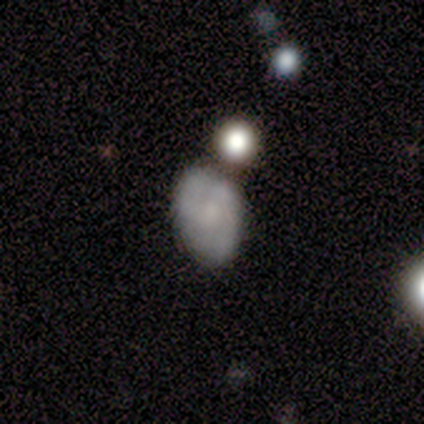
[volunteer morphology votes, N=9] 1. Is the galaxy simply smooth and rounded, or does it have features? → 78% featured or disk, 22% smooth, 0% star or artifact.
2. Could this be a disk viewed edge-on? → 100% no, 0% yes.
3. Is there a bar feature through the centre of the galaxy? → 57% weak, 43% no, 0% strong.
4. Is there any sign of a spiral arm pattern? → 100% yes, 0% no.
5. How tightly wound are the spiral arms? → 43% tight (tied), 43% medium (tied), 14% loose.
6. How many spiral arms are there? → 43% 2, 29% 3, 29% can't tell, 0% 1, 0% 4, 0% more than 4.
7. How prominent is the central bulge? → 43% moderate, 29% small, 14% large, 14% none, 0% dominant.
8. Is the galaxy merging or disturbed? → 56% none, 44% minor disturbance, 0% major disturbance, 0% merger.